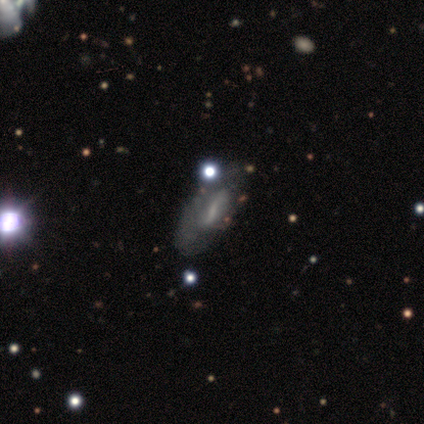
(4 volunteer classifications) Smooth or featured? 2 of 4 (50%) said featured or disk. Edge-on disk? 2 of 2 (100%) said no. Bar? 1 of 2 (50%, tied with no) said strong. Spiral arms? 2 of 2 (100%) said no. Bulge size? 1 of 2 (50%, tied with none) said small. Merging? 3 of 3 (100%) said none.